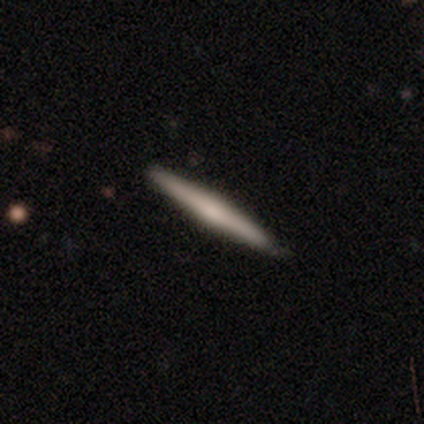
Q: Smooth or featured?
A: smooth (50%); runner-up: featured or disk (43%)
Q: How rounded?
A: cigar-shaped (98%); runner-up: round (2%)
Q: Merging?
A: none (87%); runner-up: minor disturbance (10%)